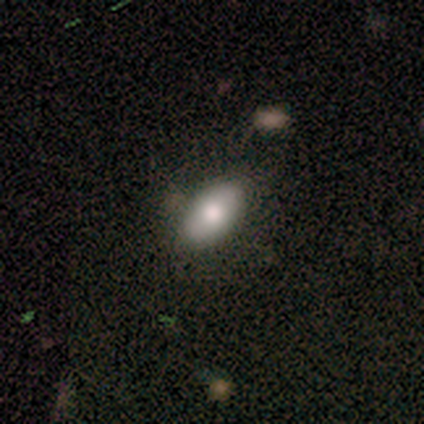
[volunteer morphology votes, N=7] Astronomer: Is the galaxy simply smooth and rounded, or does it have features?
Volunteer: smooth — 100%.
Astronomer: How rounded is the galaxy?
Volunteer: in between — 100%.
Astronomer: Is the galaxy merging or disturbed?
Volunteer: none — 71%.